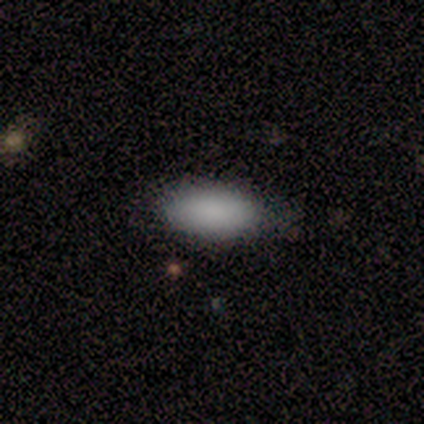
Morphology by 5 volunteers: Q: Smooth or featured?
A: smooth (80%); runner-up: star or artifact (20%)
Q: How rounded?
A: in between (100%)
Q: Merging?
A: none (100%)